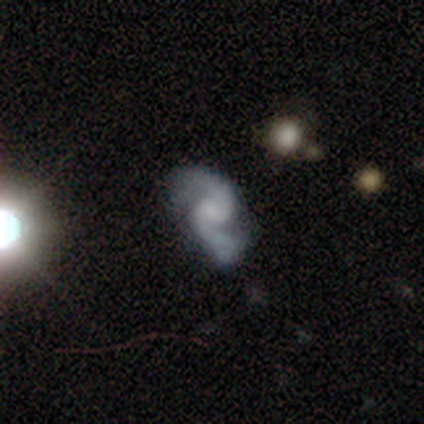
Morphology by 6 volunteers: Smooth or featured: featured or disk — 83% (smooth — 17%)
Edge-on disk: no — 100%
Bar: weak — 80% (no — 20%)
Spiral arms: yes — 100%
Spiral winding: loose — 60% (tight — 20%)
Spiral arm count: 2 — 100%
Bulge size: small — 80% (none — 20%)
Merging: minor disturbance — 67% (none — 33%)